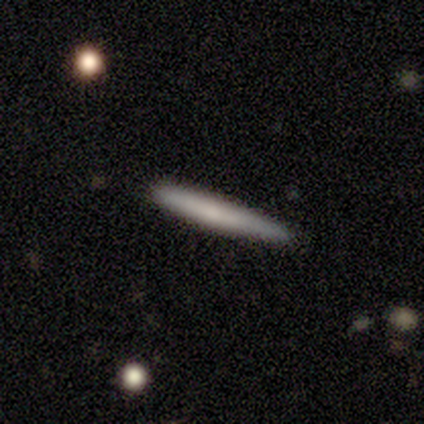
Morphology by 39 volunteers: Smooth or featured? 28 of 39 (72%) said smooth. How rounded? 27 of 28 (96%) said cigar-shaped. Merging? 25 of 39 (64%) said none.